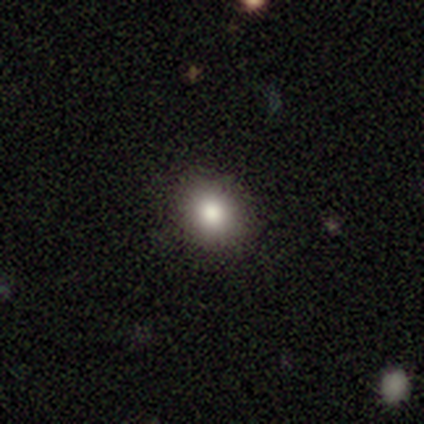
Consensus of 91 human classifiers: A smooth galaxy with no disk features (79%) that is round (67%). Merging: none (94%).